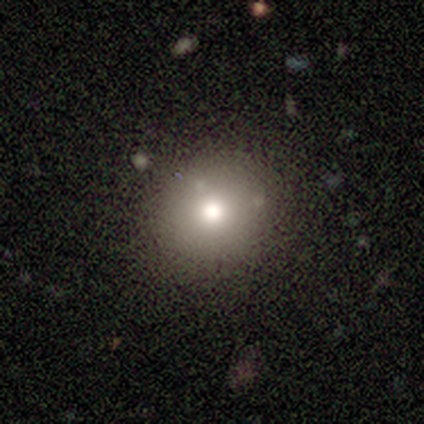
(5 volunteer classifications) Q: Smooth or featured?
A: smooth (80%); runner-up: star or artifact (20%)
Q: How rounded?
A: round (100%)
Q: Merging?
A: none (100%)